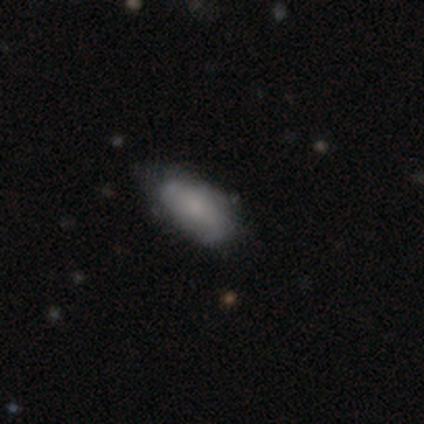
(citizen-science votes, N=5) Q: Smooth or featured?
A: smooth (40%); tied with: featured or disk (40%)
Q: How rounded?
A: in between (100%)
Q: Merging?
A: none (100%)